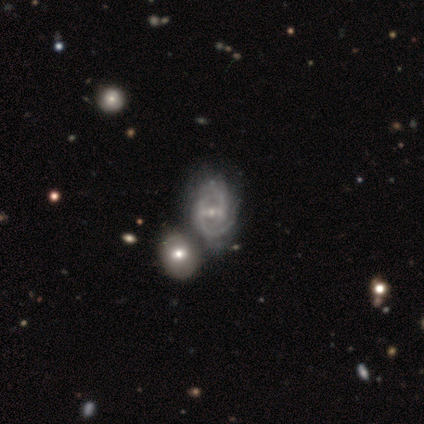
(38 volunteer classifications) Morphology: type=featured or disk (92%); edge-on=no (100%); bar=weak (49%); spiral arms=yes (97%); winding=tight (56%); arm count=2 (44%); bulge=small (60%); merging=merger (43%).